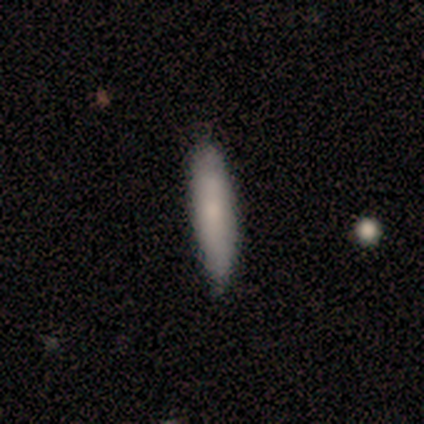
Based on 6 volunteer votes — This appears to be a smooth galaxy with no disk features (83%) that is cigar-shaped (100%). Merging: none (67%).